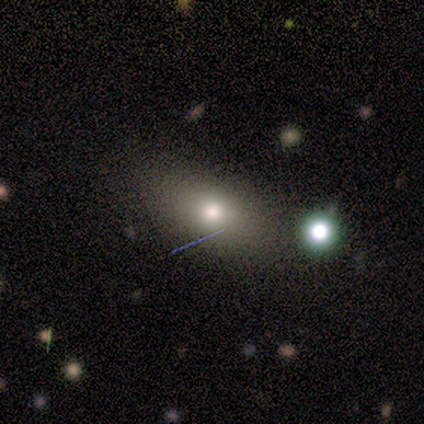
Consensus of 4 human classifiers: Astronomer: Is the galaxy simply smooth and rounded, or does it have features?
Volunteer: smooth — 100%.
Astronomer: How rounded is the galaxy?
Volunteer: in between — 100%.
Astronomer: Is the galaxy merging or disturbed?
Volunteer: none — 75%.